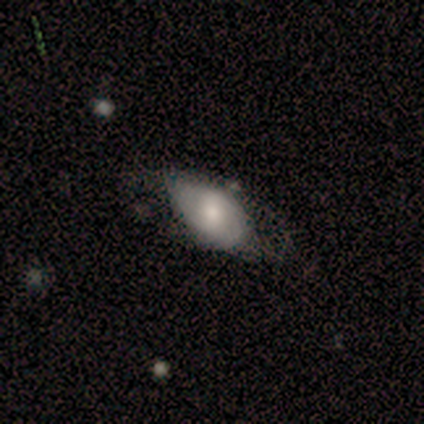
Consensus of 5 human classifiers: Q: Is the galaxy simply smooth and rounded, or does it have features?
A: featured or disk — 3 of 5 (60%).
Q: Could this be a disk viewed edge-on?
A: no — 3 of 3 (100%).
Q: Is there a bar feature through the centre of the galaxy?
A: weak — 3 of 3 (100%).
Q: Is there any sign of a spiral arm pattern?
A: yes — 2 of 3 (67%).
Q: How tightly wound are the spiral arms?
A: tight — 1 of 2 (50%, tied with medium).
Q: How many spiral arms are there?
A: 2 — 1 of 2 (50%, tied with can't tell).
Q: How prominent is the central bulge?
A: small — 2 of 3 (67%).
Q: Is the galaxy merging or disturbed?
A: minor disturbance — 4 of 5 (80%).